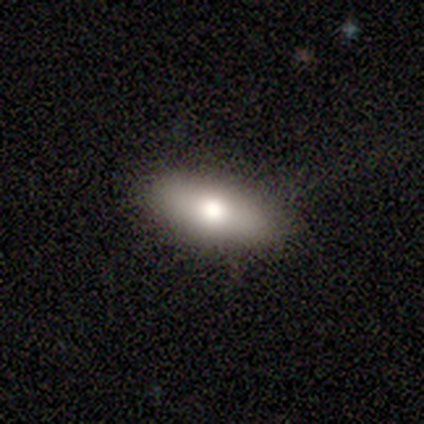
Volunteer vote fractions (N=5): Smooth or featured?
  - smooth: 60% *
  - featured or disk: 40%
  - star or artifact: 0%
How rounded?
  - in between: 67% *
  - cigar-shaped: 33%
  - round: 0%
Merging?
  - none: 100% *
  - minor disturbance: 0%
  - major disturbance: 0%
  - merger: 0%